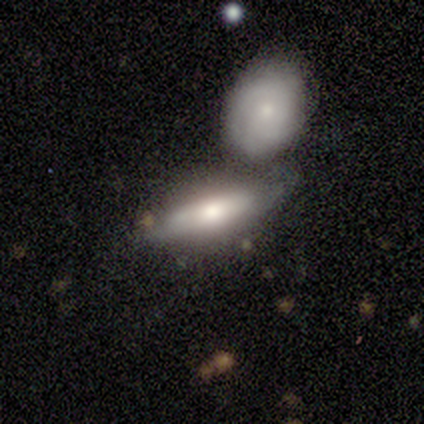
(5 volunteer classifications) Volunteers were most divided on "merging": merger: 60%, none: 40%, minor disturbance: 0%, major disturbance: 0%. More confident: how rounded — in between (100%); smooth or featured — smooth (80%).